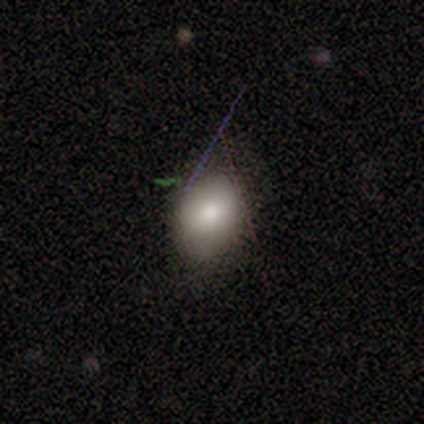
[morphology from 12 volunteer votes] A smooth galaxy with no disk features (75%) that is in between round and cigar-shaped (67%). Merging: none (64%).